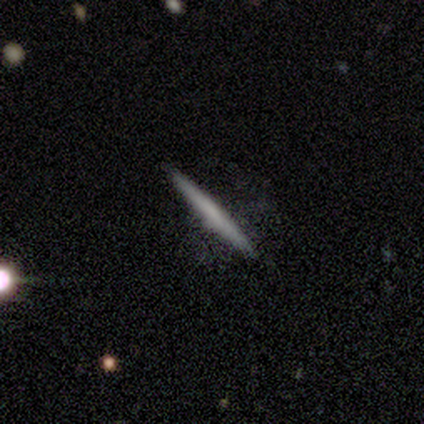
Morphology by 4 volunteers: type=featured or disk (100%); edge-on=yes (100%); edge-on bulge=none (100%); merging=none (75%).